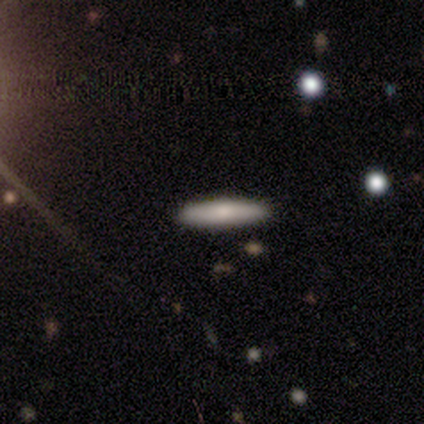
This is possibly a smooth galaxy (50%). How rounded: possibly in between (50%, tied with cigar-shaped). Merging: likely none (67%).